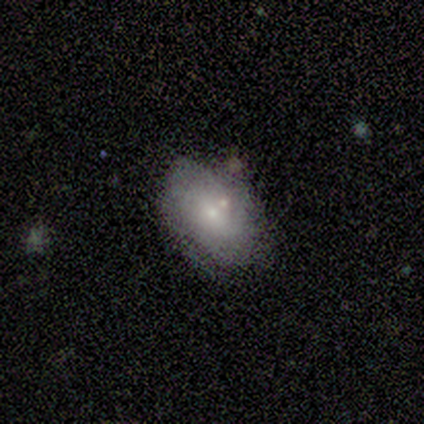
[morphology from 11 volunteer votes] Volunteers were most divided on "merging" (2-way tie): none: 45%, minor disturbance: 45%, merger: 9%, major disturbance: 0%. More confident: how rounded — in between (100%); smooth or featured — smooth (64%).